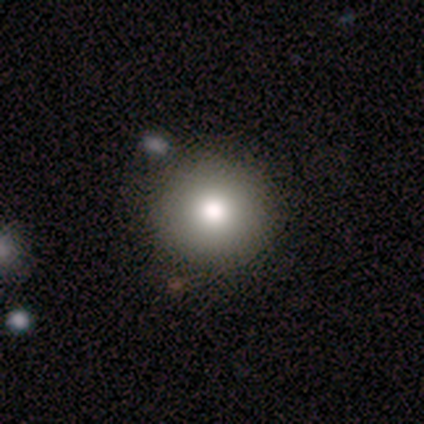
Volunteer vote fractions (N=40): Smooth or featured? smooth (68%)
How rounded? round (96%)
Merging? none (82%)